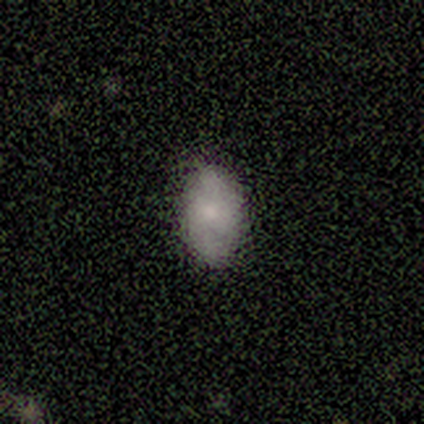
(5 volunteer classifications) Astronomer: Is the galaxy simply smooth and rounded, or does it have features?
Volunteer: featured or disk — 60% (runner-up: smooth, 40%).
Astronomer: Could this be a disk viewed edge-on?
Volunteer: no — 100%.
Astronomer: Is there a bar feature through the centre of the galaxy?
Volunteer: no — 67%.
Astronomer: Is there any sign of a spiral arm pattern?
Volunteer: yes — 100%.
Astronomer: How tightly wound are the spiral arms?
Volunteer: loose — 67%.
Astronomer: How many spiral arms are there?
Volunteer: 2 — 100%.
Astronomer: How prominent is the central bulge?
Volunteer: small — 67%.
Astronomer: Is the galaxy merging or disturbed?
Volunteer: none — 80%.